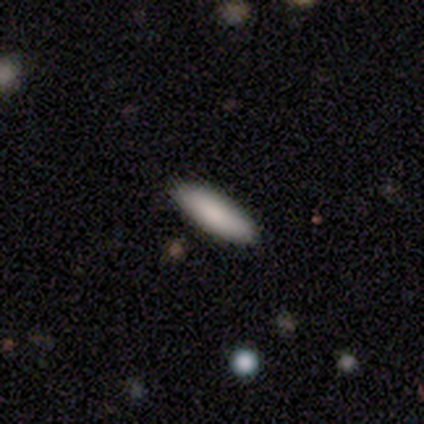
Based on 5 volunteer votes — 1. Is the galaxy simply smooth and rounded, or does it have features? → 100% smooth, 0% featured or disk, 0% star or artifact.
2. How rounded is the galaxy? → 80% in between, 20% cigar-shaped, 0% round.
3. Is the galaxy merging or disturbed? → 100% none, 0% minor disturbance, 0% major disturbance, 0% merger.